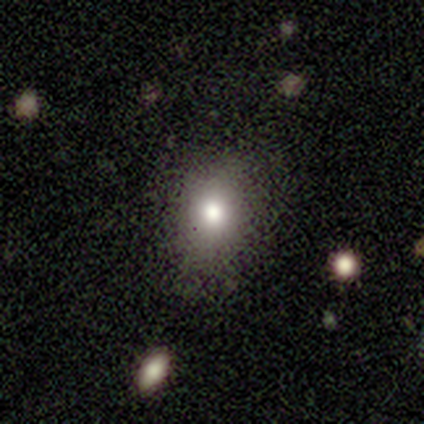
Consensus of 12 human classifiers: Smooth or featured?
  - smooth: 58% *
  - featured or disk: 25%
  - star or artifact: 17%
How rounded?
  - in between: 71% *
  - round: 29%
  - cigar-shaped: 0%
Merging?
  - none: 40% * (tied)
  - minor disturbance: 40% * (tied)
  - major disturbance: 20%
  - merger: 0%